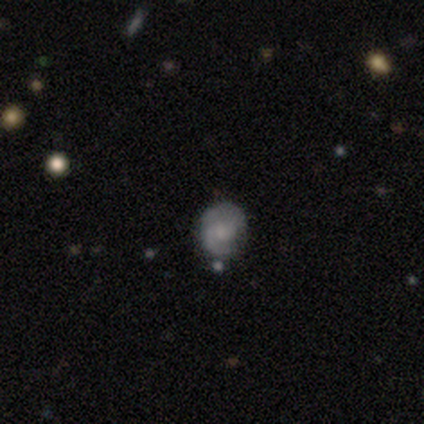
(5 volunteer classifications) smooth_or_featured: smooth (p=0.40) [tied with: featured or disk p=0.40]
how_rounded: round (p=1.00)
merging: none (p=0.75) [alt: minor disturbance p=0.25]